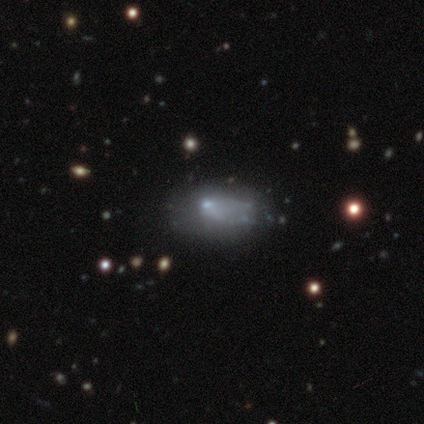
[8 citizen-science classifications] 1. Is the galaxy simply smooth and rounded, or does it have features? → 62% smooth, 38% featured or disk, 0% star or artifact.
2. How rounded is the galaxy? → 100% in between, 0% round, 0% cigar-shaped.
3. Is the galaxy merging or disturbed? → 50% none, 38% minor disturbance, 12% major disturbance, 0% merger.